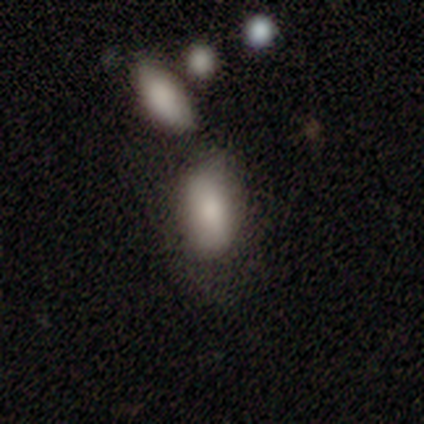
Smooth or featured: smooth — 80% (featured or disk — 20%)
How rounded: in between — 100%
Merging: none — 60% (minor disturbance — 40%)